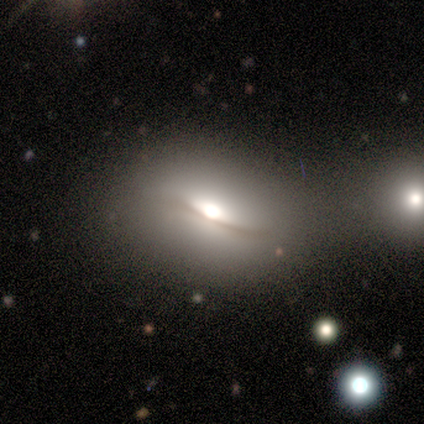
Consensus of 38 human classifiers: Q: Smooth or featured?
A: featured or disk (58%); runner-up: smooth (37%)
Q: Edge-on disk?
A: yes (55%); runner-up: no (45%)
Q: Edge-on bulge?
A: rounded (92%); runner-up: boxy (8%)
Q: Merging?
A: none (64%); runner-up: minor disturbance (19%)